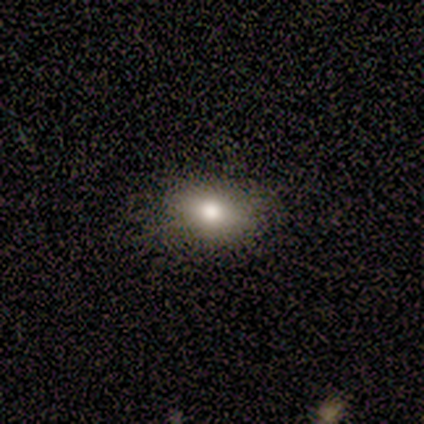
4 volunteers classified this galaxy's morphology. smooth_or_featured: smooth (p=0.75) [alt: star or artifact p=0.25]
how_rounded: in between (p=1.00)
merging: none (p=1.00)